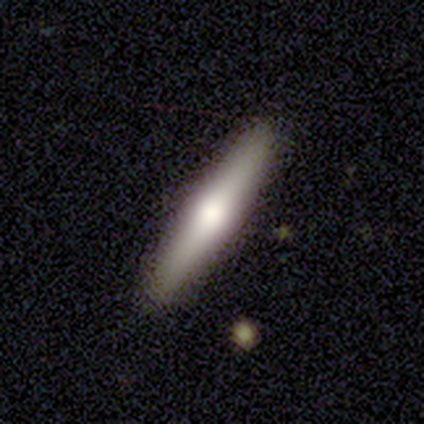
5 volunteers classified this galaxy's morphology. Smooth or featured? 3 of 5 (60%) said featured or disk. Edge-on disk? 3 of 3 (100%) said yes. Edge-on bulge? 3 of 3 (100%) said rounded. Merging? 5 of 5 (100%) said none.